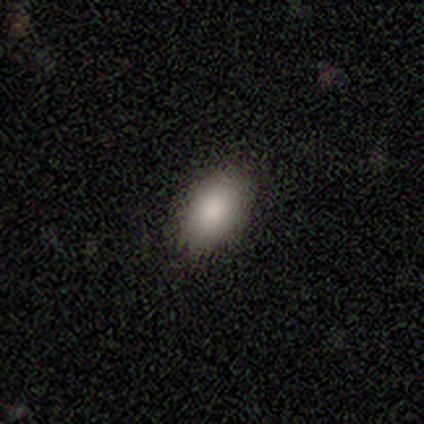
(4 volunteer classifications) Morphology: type=smooth (100%); roundness=in between (100%); merging=none (100%).